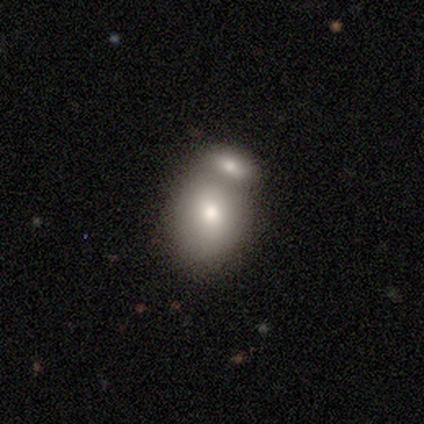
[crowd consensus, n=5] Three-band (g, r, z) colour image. It shows a smooth galaxy with no disk features (100%) that is in between round and cigar-shaped (60%). Merging: merger (100%).